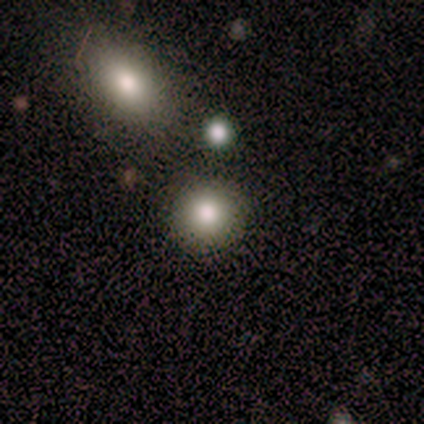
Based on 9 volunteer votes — Q: Smooth or featured?
A: smooth (100%)
Q: How rounded?
A: round (100%)
Q: Merging?
A: none (78%); runner-up: minor disturbance (11%)